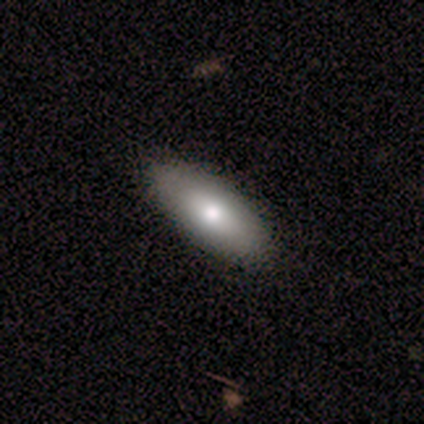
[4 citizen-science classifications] This appears to be a smooth galaxy with no disk features (75%) that is in between round and cigar-shaped (67%). Merging: none (100%).